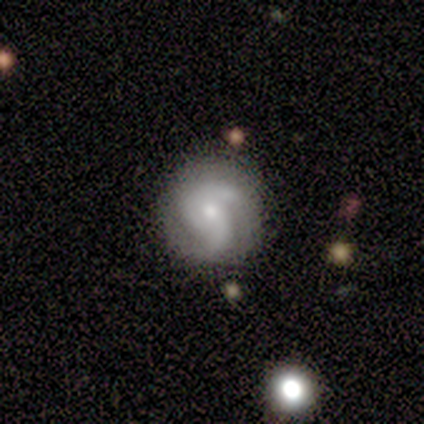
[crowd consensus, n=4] featured or disk 75%, smooth 25%, star or artifact 0%. Down the decision tree: edge-on disk — no (100%); bar — no (67%); spiral arms — yes (100%); spiral arm count — 2 (67%); spiral winding — loose (67%); bulge size — large (33%, tied with moderate and small); merging — none (75%).